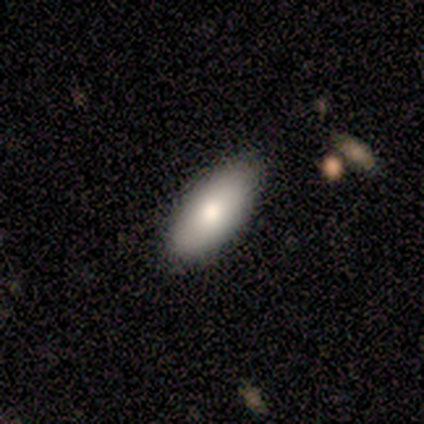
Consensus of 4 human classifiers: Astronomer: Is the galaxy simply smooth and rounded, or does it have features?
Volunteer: smooth — 100%.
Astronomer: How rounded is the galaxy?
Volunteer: in between — 100%.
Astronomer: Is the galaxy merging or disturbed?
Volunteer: none — 75%.